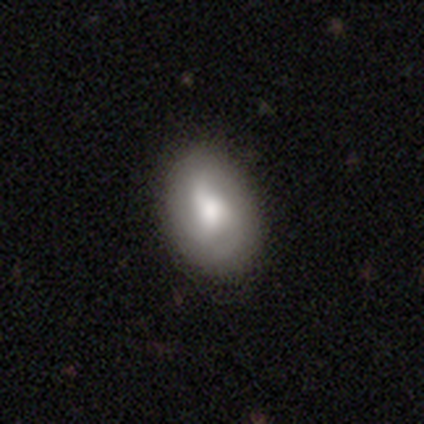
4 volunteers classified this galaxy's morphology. Volunteers were most divided on "smooth or featured" (2-way tie): smooth: 50%, featured or disk: 50%, star or artifact: 0%. More confident: how rounded — in between (100%); merging — none (75%).